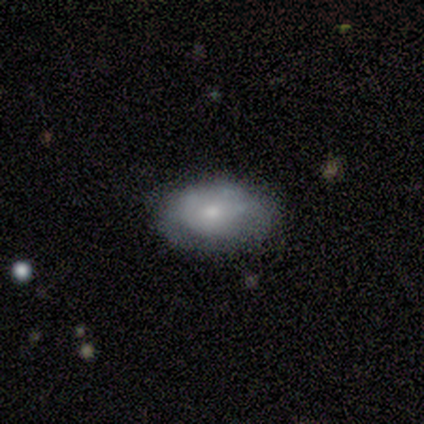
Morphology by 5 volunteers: Smooth or featured? 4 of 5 (80%) said smooth. How rounded? 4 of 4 (100%) said in between. Merging? 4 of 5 (80%) said none.